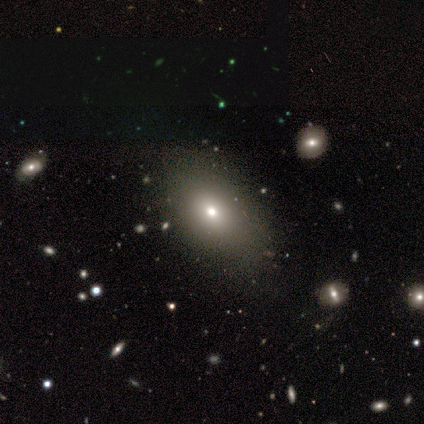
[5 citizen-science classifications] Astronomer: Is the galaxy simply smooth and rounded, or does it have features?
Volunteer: smooth — 100%.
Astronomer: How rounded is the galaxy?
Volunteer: in between — 100%.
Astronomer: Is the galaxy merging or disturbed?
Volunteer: none — 80%.